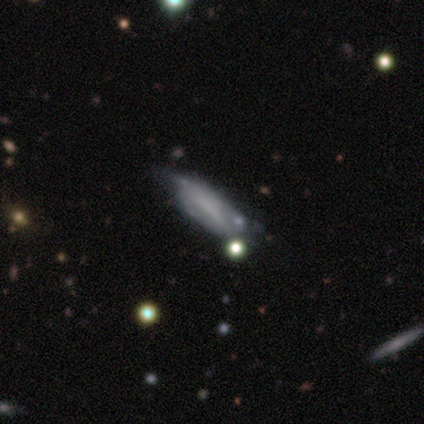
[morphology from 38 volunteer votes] Smooth or featured? smooth (58%)
How rounded? in between (73%)
Merging? none (32%)